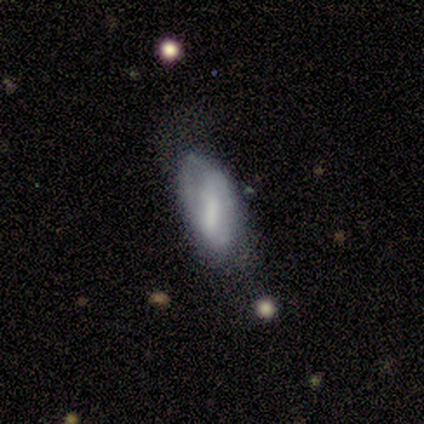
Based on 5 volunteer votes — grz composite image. It shows a featured or disk galaxy (60%) with a strong bar (50%, tied with no), no spiral arms (100%) and a moderate central bulge (100%). Merging: minor disturbance (60%).